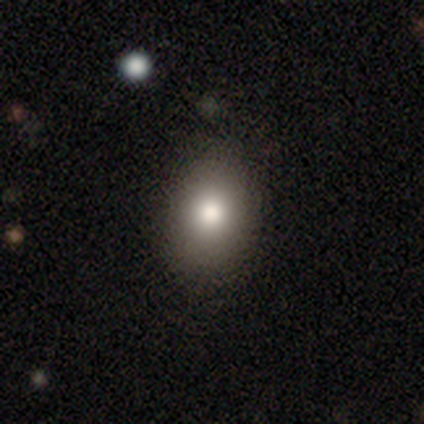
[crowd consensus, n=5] This is clearly a smooth galaxy (80%). How rounded: clearly in between (100%). Merging: likely none (75%).